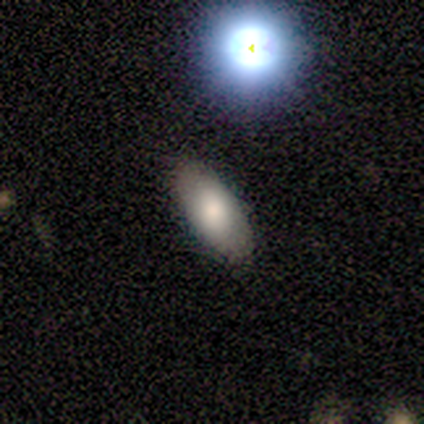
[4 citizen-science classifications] Smooth or featured: smooth — 100%
How rounded: in between — 100%
Merging: none — 75% (minor disturbance — 25%)